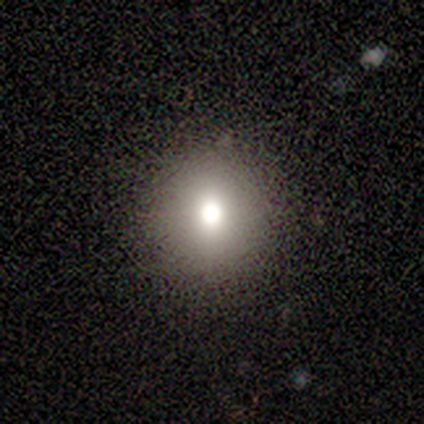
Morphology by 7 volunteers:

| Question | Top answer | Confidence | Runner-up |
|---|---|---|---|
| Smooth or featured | smooth | 71% | featured or disk (14%) |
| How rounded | round | 60% | in between (20%) |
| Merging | none | 100% | — |